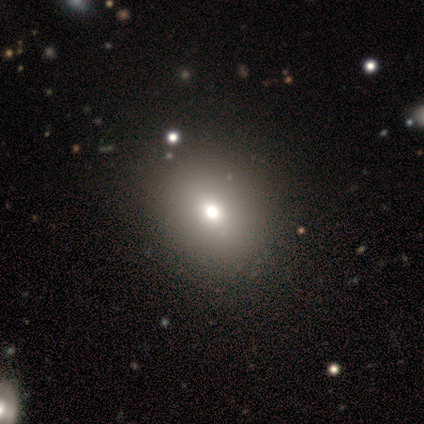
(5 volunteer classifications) Smooth or featured? 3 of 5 (60%) said featured or disk. Edge-on disk? 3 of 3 (100%) said no. Bar? 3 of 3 (100%) said no. Spiral arms? 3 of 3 (100%) said no. Bulge size? 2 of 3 (67%) said moderate. Merging? 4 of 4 (100%) said none.